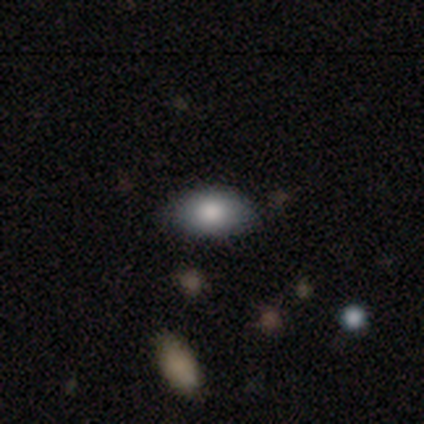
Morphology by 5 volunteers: Smooth or featured?
  - smooth: 100% *
  - featured or disk: 0%
  - star or artifact: 0%
How rounded?
  - in between: 100% *
  - round: 0%
  - cigar-shaped: 0%
Merging?
  - none: 100% *
  - minor disturbance: 0%
  - major disturbance: 0%
  - merger: 0%